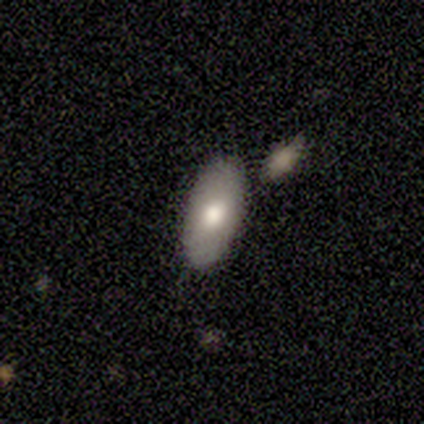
A smooth galaxy with no disk features (100%) that is in between round and cigar-shaped (100%). Merging: none (60%).